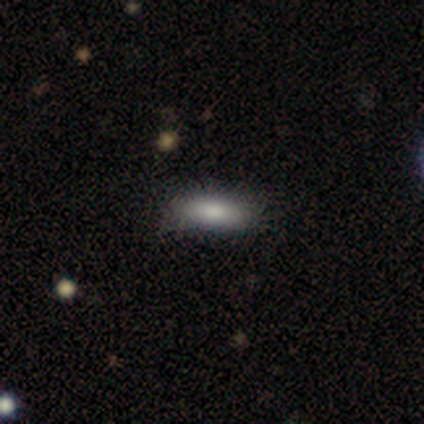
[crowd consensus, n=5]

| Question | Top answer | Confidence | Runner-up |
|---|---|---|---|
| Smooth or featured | smooth | 100% | — |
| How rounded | in between | 60% | cigar-shaped (40%) |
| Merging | none | 80% | minor disturbance (20%) |